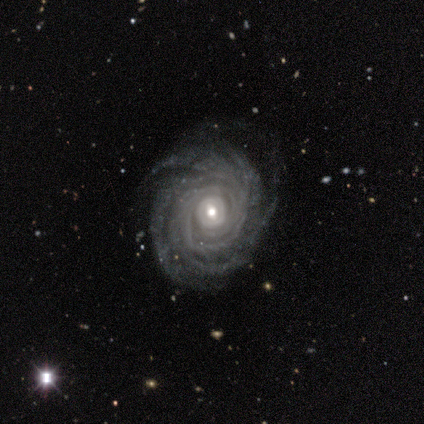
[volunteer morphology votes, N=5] Smooth or featured?
  - featured or disk: 100% *
  - smooth: 0%
  - star or artifact: 0%
Edge-on disk?
  - no: 100% *
  - yes: 0%
Bar?
  - no: 60% *
  - strong: 20%
  - weak: 20%
Spiral arms?
  - yes: 100% *
  - no: 0%
Spiral winding?
  - tight: 100% *
  - medium: 0%
  - loose: 0%
Spiral arm count?
  - more than 4: 60% *
  - 3: 20%
  - 4: 20%
  - 1: 0%
  - 2: 0%
  - can't tell: 0%
Bulge size?
  - moderate: 80% *
  - small: 20%
  - dominant: 0%
  - large: 0%
  - none: 0%
Merging?
  - none: 80% *
  - minor disturbance: 20%
  - major disturbance: 0%
  - merger: 0%